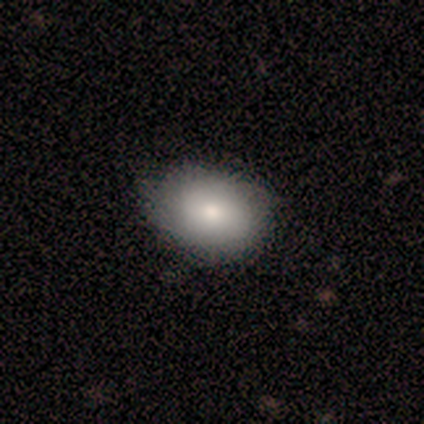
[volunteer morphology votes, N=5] type=smooth (80%); roundness=round (50%, tied with in between); merging=none (100%).